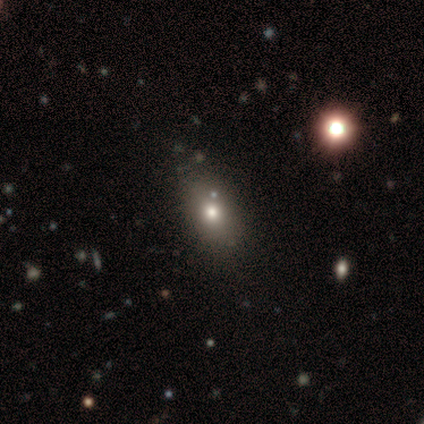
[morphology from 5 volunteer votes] Smooth or featured?
  - featured or disk: 60% *
  - smooth: 40%
  - star or artifact: 0%
Edge-on disk?
  - no: 100% *
  - yes: 0%
Bar?
  - no: 100% *
  - strong: 0%
  - weak: 0%
Spiral arms?
  - no: 100% *
  - yes: 0%
Bulge size?
  - dominant: 33% * (tied)
  - large: 33% * (tied)
  - moderate: 33% * (tied)
  - small: 0%
  - none: 0%
Merging?
  - none: 40% * (tied)
  - merger: 40% * (tied)
  - minor disturbance: 20%
  - major disturbance: 0%